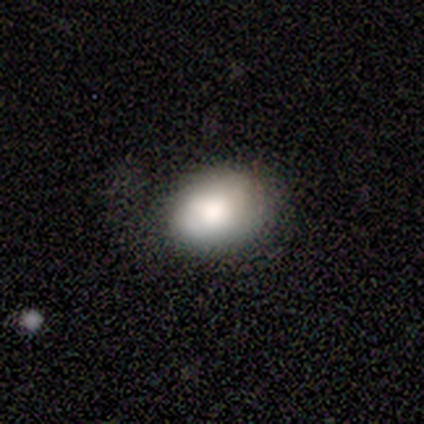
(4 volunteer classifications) Overall: smooth (75%). How rounded: in between (100%). Merging: minor disturbance (67%; none 33%).